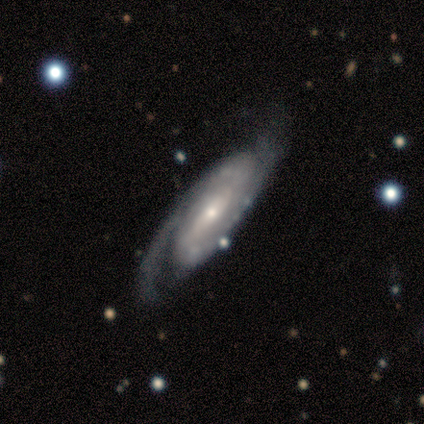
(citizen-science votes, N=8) Smooth or featured? featured or disk (88%)
Edge-on disk? no (100%)
Bar? strong (43%, tied with weak)
Spiral arms? yes (100%)
Spiral winding? tight (100%)
Spiral arm count? 2 (86%)
Bulge size? small (86%)
Merging? minor disturbance (57%)